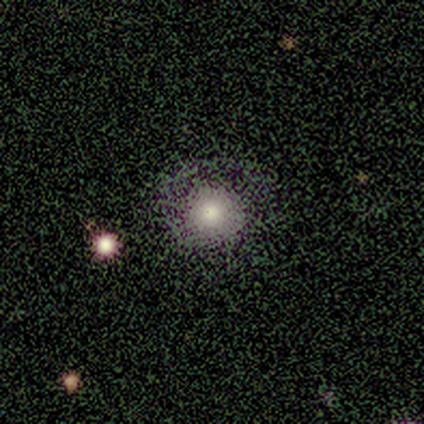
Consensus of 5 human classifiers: Volunteers were most divided on "smooth or featured" (2-way tie): smooth: 40%, featured or disk: 40%, star or artifact: 20%; "how rounded" (2-way tie): round: 50%, in between: 50%, cigar-shaped: 0%. More confident: merging — none (50%).